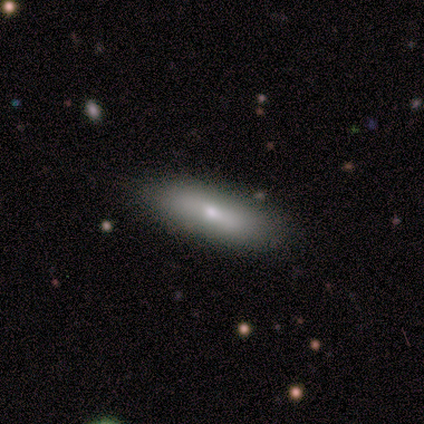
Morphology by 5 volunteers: smooth 80%, featured or disk 20%, star or artifact 0%. Down the decision tree: how rounded — in between (75%); merging — none (80%).